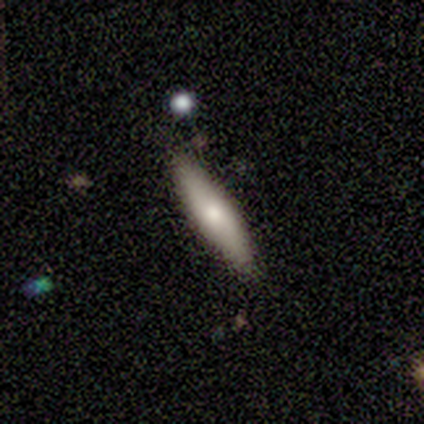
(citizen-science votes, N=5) Smooth or featured: featured or disk — 60% (smooth — 40%)
Edge-on disk: yes — 67% (no — 33%)
Edge-on bulge: boxy — 50% (tied with rounded — 50%)
Merging: none — 80% (merger — 20%)